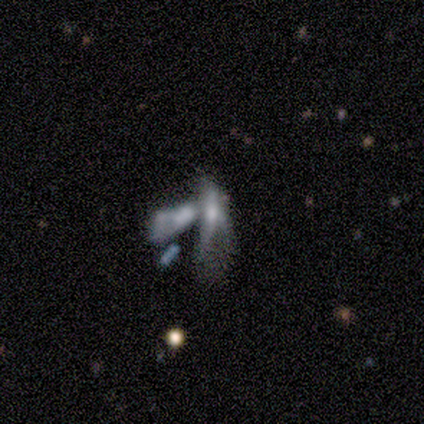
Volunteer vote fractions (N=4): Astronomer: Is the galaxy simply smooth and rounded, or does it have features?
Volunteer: featured or disk — 50%.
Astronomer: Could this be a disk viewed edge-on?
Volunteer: no — 100%.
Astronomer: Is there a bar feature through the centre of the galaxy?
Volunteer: no — 100%.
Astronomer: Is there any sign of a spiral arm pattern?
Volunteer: no — 100%.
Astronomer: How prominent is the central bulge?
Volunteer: small — 50%, tied with none at 50%.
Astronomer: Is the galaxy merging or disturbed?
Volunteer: merger — 100%.